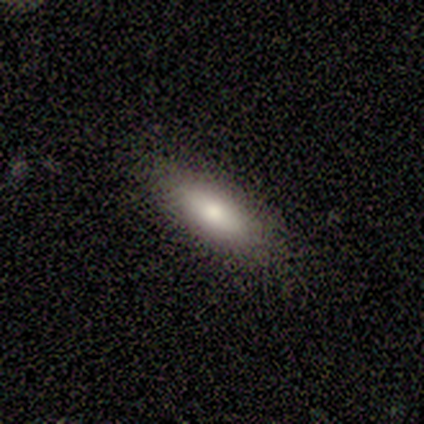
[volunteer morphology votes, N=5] A smooth galaxy with no disk features (80%) that is in between round and cigar-shaped (50%, tied with cigar-shaped).

Vote fractions:
- Smooth or featured? smooth: 80% / featured or disk: 20% / star or artifact: 0%
- How rounded? in between: 50% (tied) / cigar-shaped: 50% (tied) / round: 0%
- Merging? none: 100% / minor disturbance: 0% / major disturbance: 0% / merger: 0%